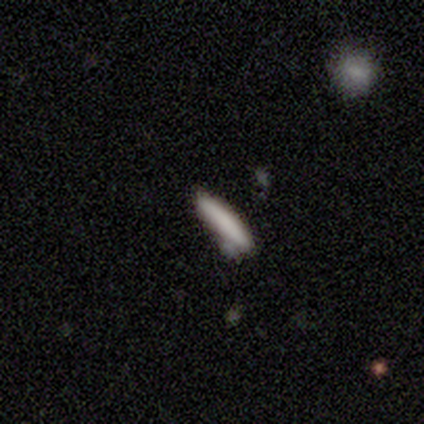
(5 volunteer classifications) Smooth or featured: smooth — 80% (star or artifact — 20%)
How rounded: cigar-shaped — 100%
Merging: none — 75% (merger — 25%)